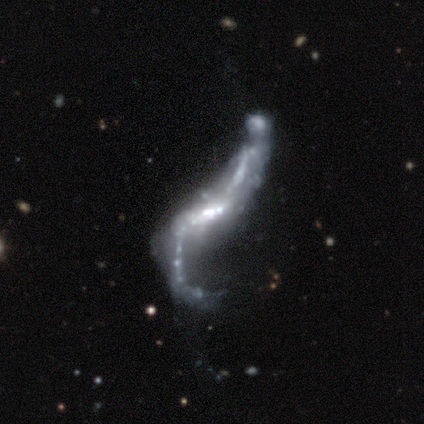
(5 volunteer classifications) Smooth or featured? featured or disk (100%)
Edge-on disk? no (100%)
Bar? no (60%)
Spiral arms? yes (60%)
Spiral winding? loose (100%)
Spiral arm count? 2 (100%)
Bulge size? moderate (40%, tied with small)
Merging? major disturbance (80%)